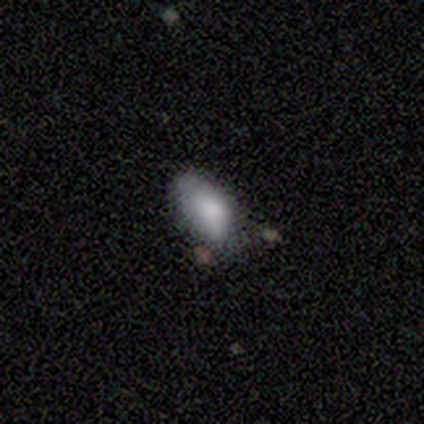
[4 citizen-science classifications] Q: Smooth or featured?
A: smooth (100%)
Q: How rounded?
A: in between (100%)
Q: Merging?
A: minor disturbance (50%); runner-up: none (25%)